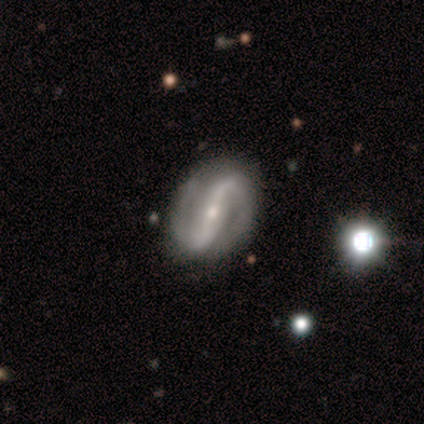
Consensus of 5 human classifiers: smooth-or-featured: featured or disk: 80% | smooth: 20% | star or artifact: 0%
  disk-edge-on: no: 100% | yes: 0%
    bar: strong: 75% | weak: 25% | no: 0%
    has-spiral-arms: yes: 100% | no: 0%
      spiral-winding: tight: 50% | medium: 25% | loose: 25%
      spiral-arm-count: 2: 100% | 1: 0% | 3: 0% | 4: 0% | more than 4: 0% | can't tell: 0%
    bulge-size: small: 75% | moderate: 25% | dominant: 0% | large: 0% | none: 0%
  merging: none: 100% | minor disturbance: 0% | major disturbance: 0% | merger: 0%